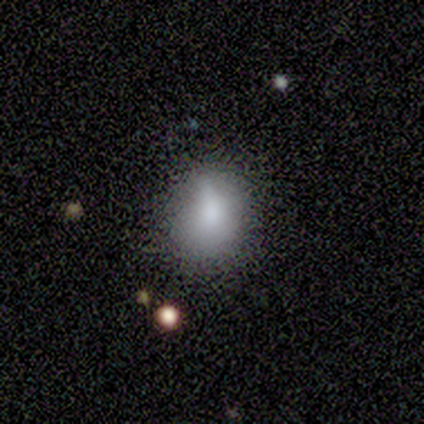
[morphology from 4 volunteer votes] Overall: smooth (100%). How rounded: round (75%). Merging: minor disturbance (75%).